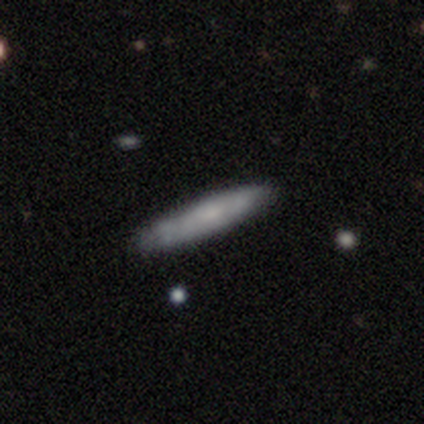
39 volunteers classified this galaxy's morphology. Smooth or featured? smooth (59%)
How rounded? cigar-shaped (87%)
Merging? none (62%)